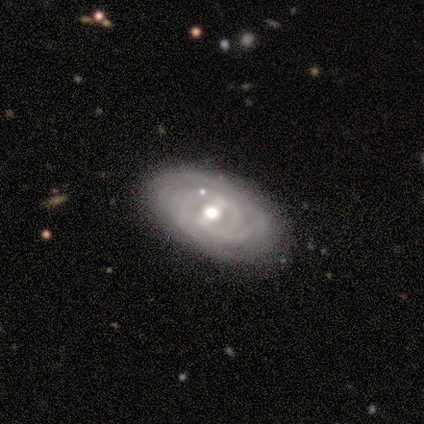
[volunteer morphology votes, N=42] Smooth or featured?
  - featured or disk: 90% *
  - smooth: 7%
  - star or artifact: 2%
Edge-on disk?
  - no: 95% *
  - yes: 5%
Bar?
  - weak: 53% *
  - no: 25%
  - strong: 22%
Spiral arms?
  - yes: 89% *
  - no: 11%
Spiral winding?
  - tight: 78% *
  - medium: 16%
  - loose: 6%
Spiral arm count?
  - can't tell: 44% *
  - 2: 25%
  - 3: 16%
  - 4: 12%
  - more than 4: 3%
  - 1: 0%
Bulge size?
  - moderate: 69% *
  - small: 19%
  - large: 11%
  - dominant: 0%
  - none: 0%
Merging?
  - none: 88% *
  - minor disturbance: 7%
  - major disturbance: 5%
  - merger: 0%